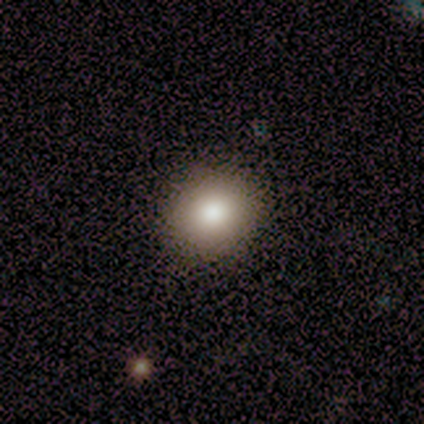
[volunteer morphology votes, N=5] Smooth or featured? 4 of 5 (80%) said smooth. How rounded? 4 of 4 (100%) said round. Merging? 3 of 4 (75%) said none.